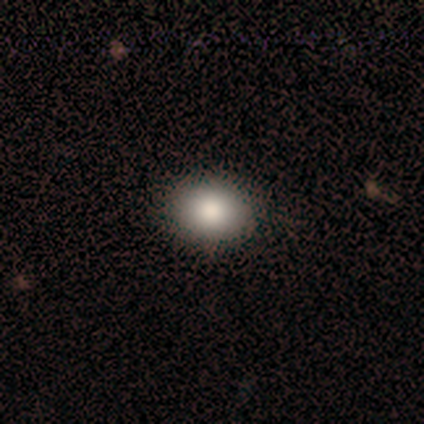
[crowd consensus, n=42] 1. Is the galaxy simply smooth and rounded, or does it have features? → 88% smooth, 7% featured or disk, 5% star or artifact.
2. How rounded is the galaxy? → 65% round, 35% in between, 0% cigar-shaped.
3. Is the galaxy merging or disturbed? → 92% none, 5% minor disturbance, 2% major disturbance, 0% merger.